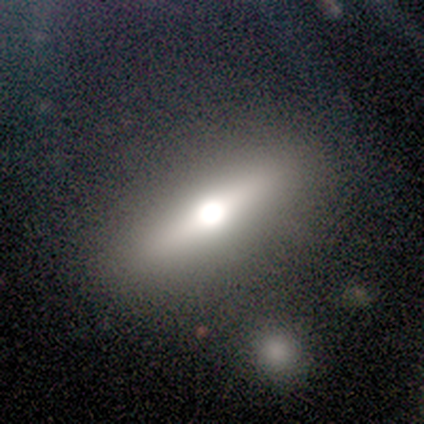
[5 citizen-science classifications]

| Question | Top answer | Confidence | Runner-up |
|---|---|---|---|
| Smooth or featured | featured or disk | 80% | smooth (20%) |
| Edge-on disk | yes | 100% | — |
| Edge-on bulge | rounded | 100% | — |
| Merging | none | 100% | — |